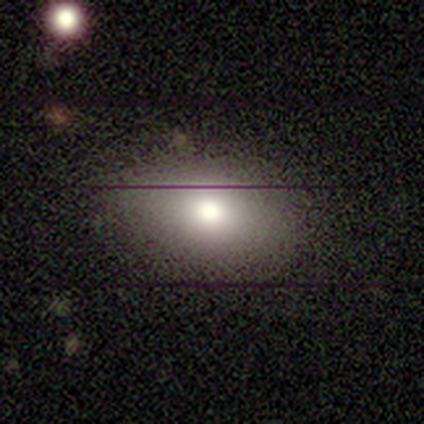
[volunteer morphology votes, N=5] A smooth galaxy with no disk features (100%) that is in between round and cigar-shaped (80%).

Vote fractions:
- Smooth or featured? smooth: 100% / featured or disk: 0% / star or artifact: 0%
- How rounded? in between: 80% / round: 20% / cigar-shaped: 0%
- Merging? none: 100% / minor disturbance: 0% / major disturbance: 0% / merger: 0%